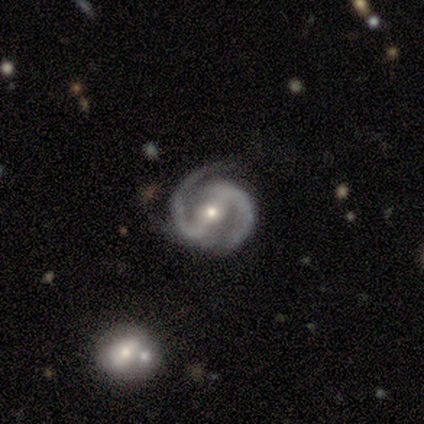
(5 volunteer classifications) Smooth or featured? 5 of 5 (100%) said featured or disk. Edge-on disk? 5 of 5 (100%) said no. Bar? 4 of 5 (80%) said strong. Spiral arms? 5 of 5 (100%) said yes. Spiral winding? 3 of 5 (60%) said medium. Spiral arm count? 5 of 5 (100%) said 2. Bulge size? 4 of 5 (80%) said small. Merging? 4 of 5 (80%) said none.